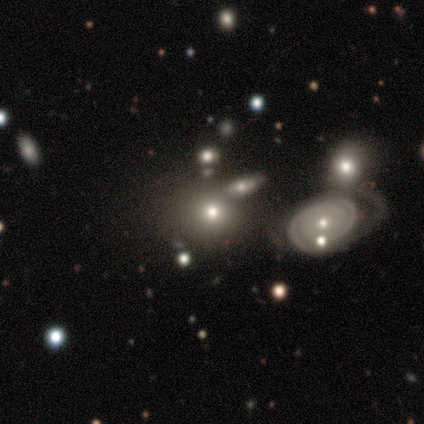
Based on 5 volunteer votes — smooth_or_featured: smooth (p=0.40) [tied with: star or artifact p=0.40]
how_rounded: round (p=1.00)
merging: none (p=0.67) [alt: merger p=0.33]